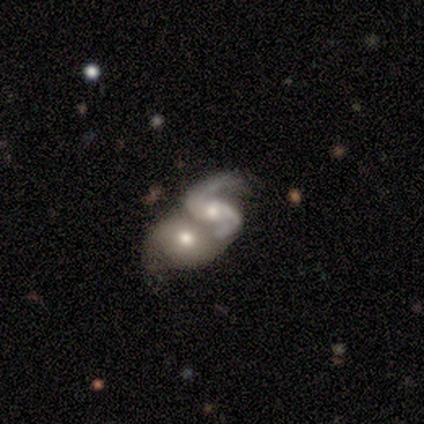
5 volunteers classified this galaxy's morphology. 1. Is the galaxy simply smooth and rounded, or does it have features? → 80% featured or disk, 20% star or artifact, 0% smooth.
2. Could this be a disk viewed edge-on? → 100% no, 0% yes.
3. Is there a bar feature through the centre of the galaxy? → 50% weak (tied), 50% no (tied), 0% strong.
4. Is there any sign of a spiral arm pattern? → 100% yes, 0% no.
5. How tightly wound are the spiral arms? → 50% medium, 25% tight, 25% loose.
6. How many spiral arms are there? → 100% 2, 0% 1, 0% 3, 0% 4, 0% more than 4, 0% can't tell.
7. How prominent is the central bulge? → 75% moderate, 25% small, 0% dominant, 0% large, 0% none.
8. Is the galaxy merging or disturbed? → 100% merger, 0% none, 0% minor disturbance, 0% major disturbance.